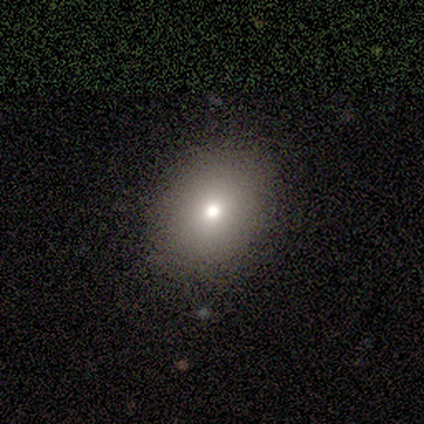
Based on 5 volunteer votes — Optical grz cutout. It shows a smooth galaxy with no disk features (80%) that is round (75%). Merging: none (75%).